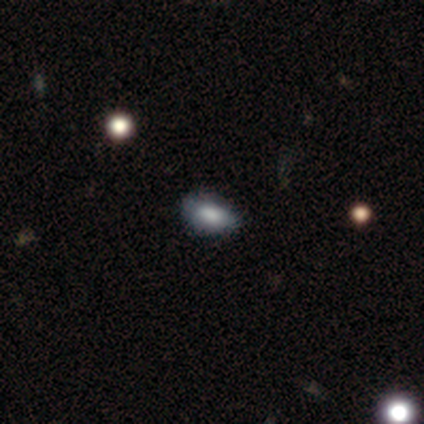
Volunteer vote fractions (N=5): Smooth or featured?
  - smooth: 80% *
  - star or artifact: 20%
  - featured or disk: 0%
How rounded?
  - in between: 100% *
  - round: 0%
  - cigar-shaped: 0%
Merging?
  - none: 100% *
  - minor disturbance: 0%
  - major disturbance: 0%
  - merger: 0%